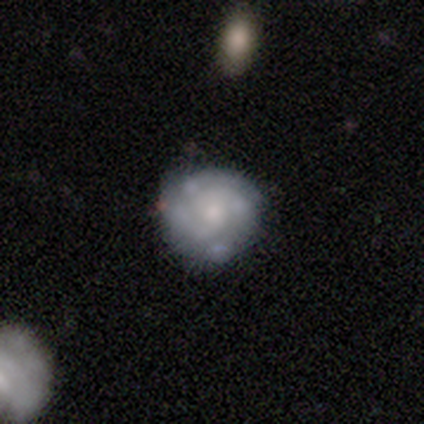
A featured or disk galaxy (100%) with no bar (75%), 2 (50%) medium (50%) spiral arms (100%) and a small central bulge (50%).

Vote fractions:
- Smooth or featured? featured or disk: 100% / smooth: 0% / star or artifact: 0%
- Edge-on disk? no: 80% / yes: 20%
- Bar? no: 75% / weak: 25% / strong: 0%
- Spiral arms? yes: 100% / no: 0%
- Spiral winding? medium: 50% / tight: 25% / loose: 25%
- Spiral arm count? 2: 50% / 3: 25% / 4: 25% / 1: 0% / more than 4: 0% / can't tell: 0%
- Bulge size? small: 50% / dominant: 25% / none: 25% / large: 0% / moderate: 0%
- Merging? none: 60% / minor disturbance: 20% / major disturbance: 20% / merger: 0%